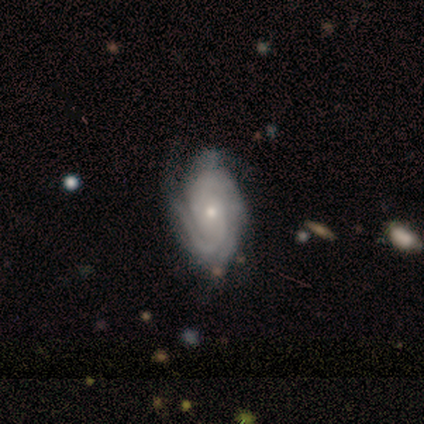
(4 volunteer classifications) This is likely a featured or disk galaxy (75%). It is clearly not viewed edge-on (100%). Bar: clearly no (100%). Spiral arm pattern: clearly yes (100%). Spiral arm count: marginally 1 (33%, tied with 3 and can't tell). Spiral winding: marginally tight (33%, tied with medium and loose). Central bulge: clearly moderate (100%). Merging: likely minor disturbance (67%).